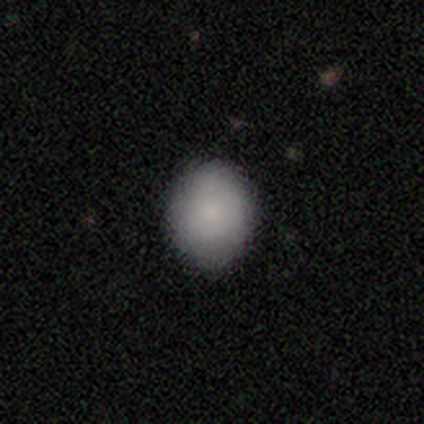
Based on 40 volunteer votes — Overall: smooth (88%). How rounded: round (66%; in between 34%). Merging: none (79%).